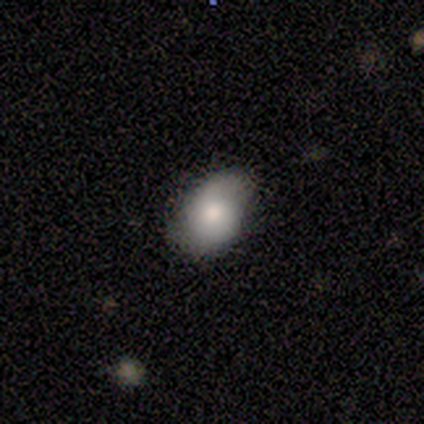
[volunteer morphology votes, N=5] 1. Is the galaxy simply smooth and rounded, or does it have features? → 100% smooth, 0% featured or disk, 0% star or artifact.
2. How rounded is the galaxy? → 100% in between, 0% round, 0% cigar-shaped.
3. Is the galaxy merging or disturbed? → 80% minor disturbance, 20% none, 0% major disturbance, 0% merger.